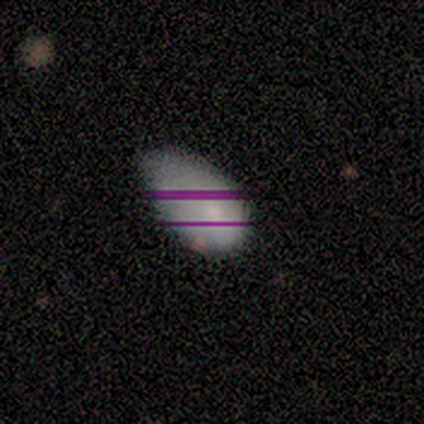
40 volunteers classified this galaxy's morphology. smooth-or-featured: smooth: 78% | star or artifact: 12% | featured or disk: 10%
  how-rounded: in between: 94% | round: 6% | cigar-shaped: 0%
  merging: minor disturbance: 63% | major disturbance: 20% | none: 17% | merger: 0%